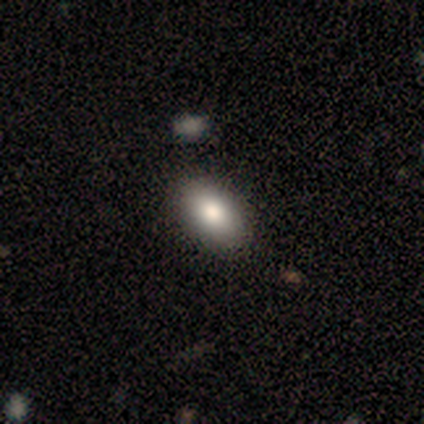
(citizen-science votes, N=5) Overall: smooth (80%). How rounded: in between (100%). Merging: none (75%).